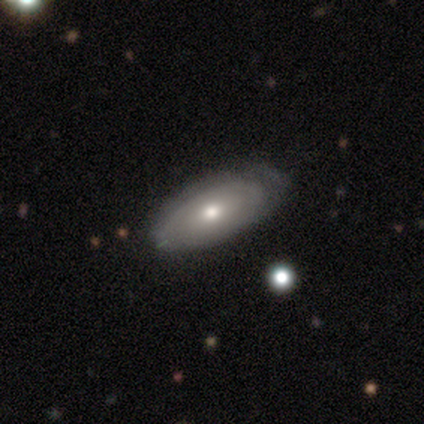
Q: Smooth or featured?
A: featured or disk (52%); runner-up: smooth (45%)
Q: Edge-on disk?
A: no (90%); runner-up: yes (10%)
Q: Bar?
A: no (79%); runner-up: weak (21%)
Q: Spiral arms?
A: yes (63%); runner-up: no (37%)
Q: Spiral winding?
A: tight (42%); tied with: medium (42%)
Q: Spiral arm count?
A: can't tell (58%); runner-up: 2 (25%)
Q: Bulge size?
A: moderate (47%); tied with: small (47%)
Q: Merging?
A: none (64%); runner-up: minor disturbance (31%)